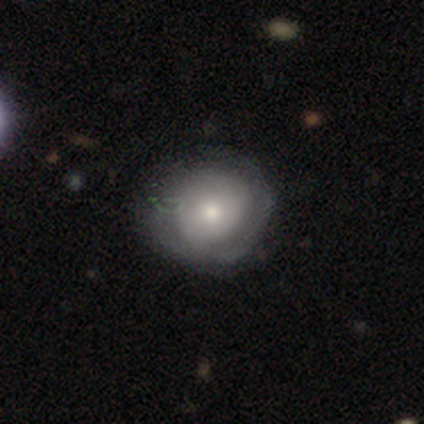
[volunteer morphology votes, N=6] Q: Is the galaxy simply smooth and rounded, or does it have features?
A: smooth — 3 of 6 (50%, tied with featured or disk).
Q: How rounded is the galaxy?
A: round — 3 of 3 (100%).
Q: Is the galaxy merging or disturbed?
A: none — 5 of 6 (83%).